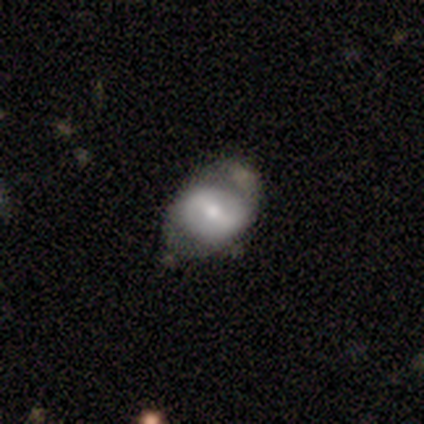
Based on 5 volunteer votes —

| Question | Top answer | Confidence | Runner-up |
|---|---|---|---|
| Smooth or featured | featured or disk | 60% | smooth (20%) |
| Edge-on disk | no | 67% | yes (33%) |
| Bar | strong | 50% | tied: no (50%) |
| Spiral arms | yes | 50% | tied: no (50%) |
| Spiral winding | tight | 100% | — |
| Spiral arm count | can't tell | 100% | — |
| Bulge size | moderate | 50% | tied: small (50%) |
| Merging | minor disturbance | 100% | — |